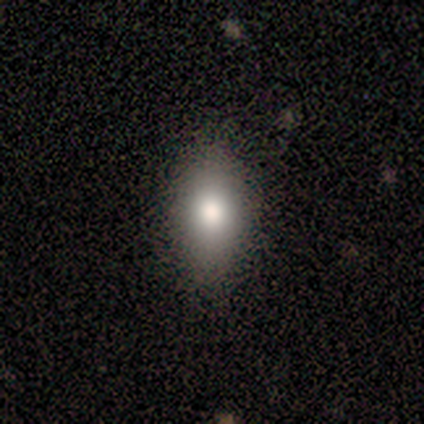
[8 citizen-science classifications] This appears to be a smooth galaxy with no disk features (62%) that is in between round and cigar-shaped (100%). Merging: none (100%).